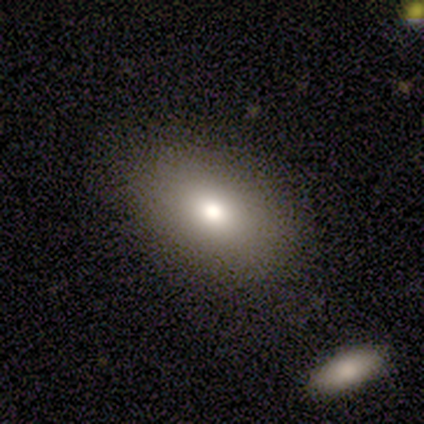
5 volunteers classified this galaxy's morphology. Q: Smooth or featured?
A: smooth (80%); runner-up: star or artifact (20%)
Q: How rounded?
A: in between (100%)
Q: Merging?
A: none (100%)